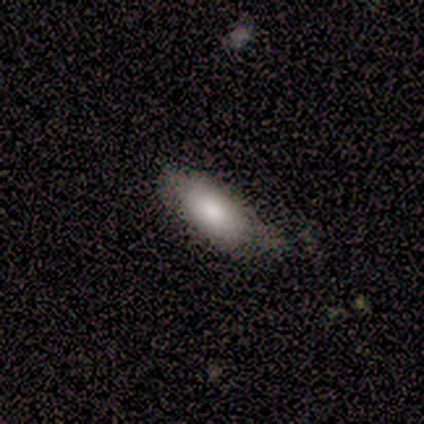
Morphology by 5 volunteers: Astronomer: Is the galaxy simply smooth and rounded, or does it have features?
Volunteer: featured or disk — 60% (runner-up: smooth, 40%).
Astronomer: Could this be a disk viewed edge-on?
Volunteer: no — 67%.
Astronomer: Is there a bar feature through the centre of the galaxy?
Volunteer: no — 100%.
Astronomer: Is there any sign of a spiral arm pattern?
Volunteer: no — 100%.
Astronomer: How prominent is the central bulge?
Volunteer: moderate — 50%, tied with none at 50%.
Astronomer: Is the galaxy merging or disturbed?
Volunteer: none — 100%.